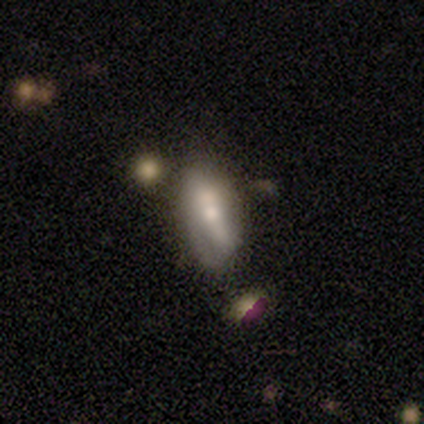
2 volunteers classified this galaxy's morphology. Volunteers were most divided on "edge-on disk" (2-way tie): yes: 50%, no: 50%; "merging" (2-way tie): none: 50%, major disturbance: 50%, minor disturbance: 0%, merger: 0%. More confident: smooth or featured — featured or disk (100%); edge-on bulge — rounded (100%).